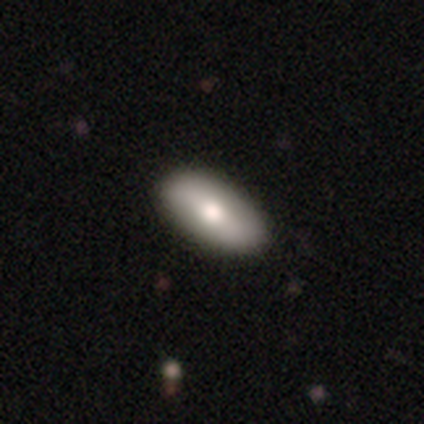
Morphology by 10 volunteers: Overall: smooth (80%). How rounded: in between (100%). Merging: none (100%).